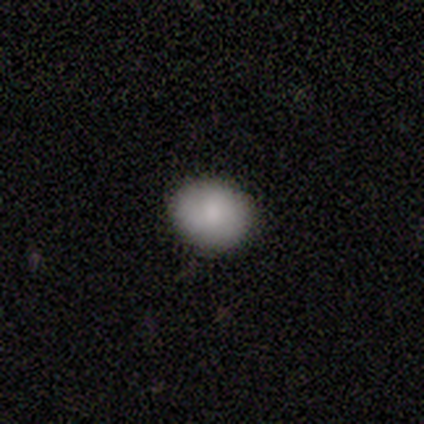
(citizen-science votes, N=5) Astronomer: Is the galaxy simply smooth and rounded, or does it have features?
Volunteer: smooth — 80%.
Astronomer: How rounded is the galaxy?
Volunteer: round — 75%.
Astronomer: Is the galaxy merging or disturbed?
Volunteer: minor disturbance — 75%.